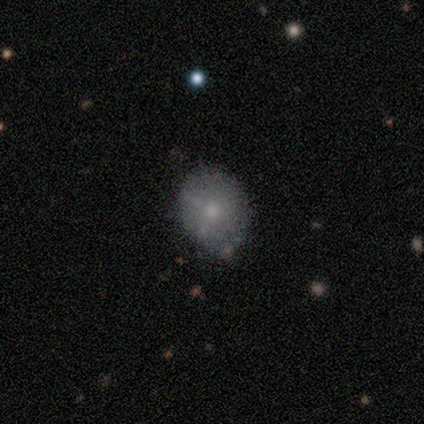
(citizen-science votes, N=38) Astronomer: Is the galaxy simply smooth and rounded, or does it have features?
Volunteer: smooth — 71%.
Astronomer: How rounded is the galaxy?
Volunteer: round — 63%.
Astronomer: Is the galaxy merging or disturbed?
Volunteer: none — 83%.